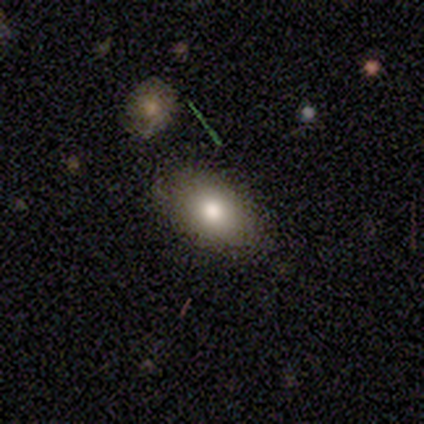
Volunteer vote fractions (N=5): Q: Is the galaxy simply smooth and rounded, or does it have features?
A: smooth — 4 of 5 (80%).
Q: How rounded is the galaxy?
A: in between — 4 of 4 (100%).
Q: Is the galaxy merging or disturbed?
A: none — 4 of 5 (80%).